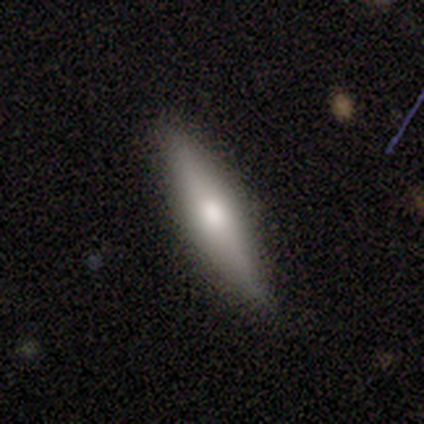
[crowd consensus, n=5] Smooth or featured?
  - smooth: 60% *
  - featured or disk: 40%
  - star or artifact: 0%
How rounded?
  - cigar-shaped: 100% *
  - round: 0%
  - in between: 0%
Merging?
  - none: 80% *
  - minor disturbance: 20%
  - major disturbance: 0%
  - merger: 0%